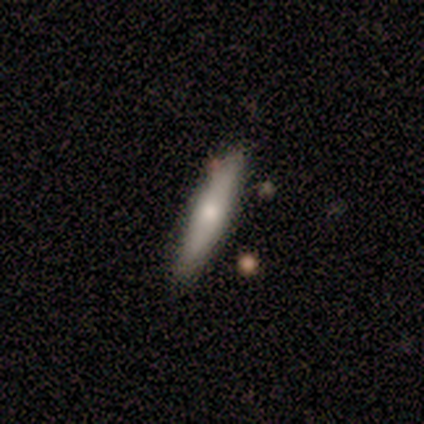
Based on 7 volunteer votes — Smooth or featured? smooth (71%)
How rounded? cigar-shaped (80%)
Merging? none (86%)